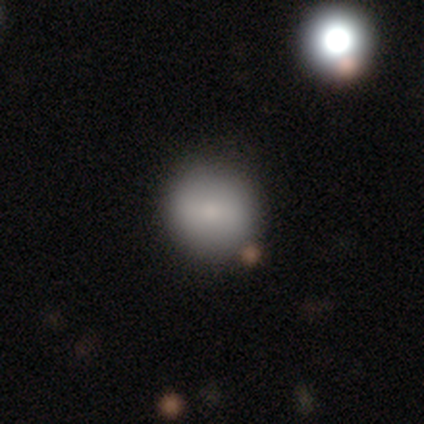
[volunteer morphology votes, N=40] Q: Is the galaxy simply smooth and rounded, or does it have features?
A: smooth — 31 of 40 (78%).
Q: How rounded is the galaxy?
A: round — 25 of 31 (81%).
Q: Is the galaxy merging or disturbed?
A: none — 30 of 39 (77%).